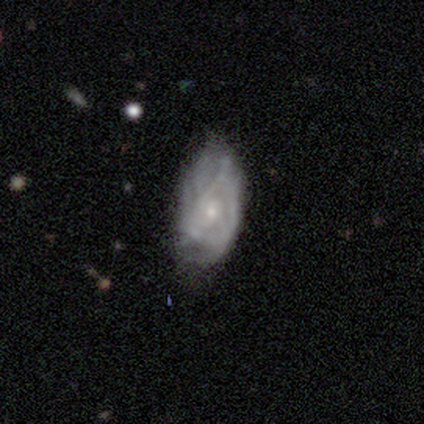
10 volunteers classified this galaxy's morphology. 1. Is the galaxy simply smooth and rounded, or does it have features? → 60% featured or disk, 20% smooth, 20% star or artifact.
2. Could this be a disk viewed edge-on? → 100% no, 0% yes.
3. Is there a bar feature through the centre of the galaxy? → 67% no, 33% weak, 0% strong.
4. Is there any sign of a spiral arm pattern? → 83% yes, 17% no.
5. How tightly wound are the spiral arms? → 80% tight, 20% loose, 0% medium.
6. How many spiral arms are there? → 60% can't tell, 20% 3, 20% 4, 0% 1, 0% 2, 0% more than 4.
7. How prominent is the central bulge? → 83% small, 17% moderate, 0% dominant, 0% large, 0% none.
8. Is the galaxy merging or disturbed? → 50% minor disturbance, 38% none, 12% major disturbance, 0% merger.